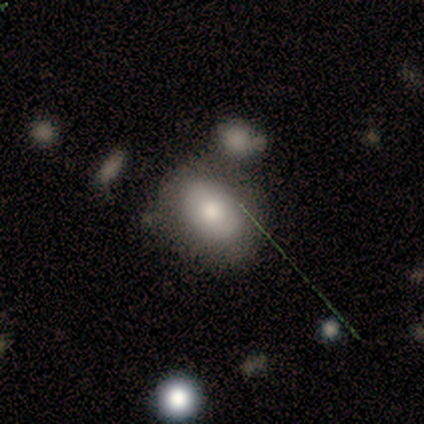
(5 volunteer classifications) A smooth galaxy with no disk features (80%) that is in between round and cigar-shaped (75%). Merging: none (80%).